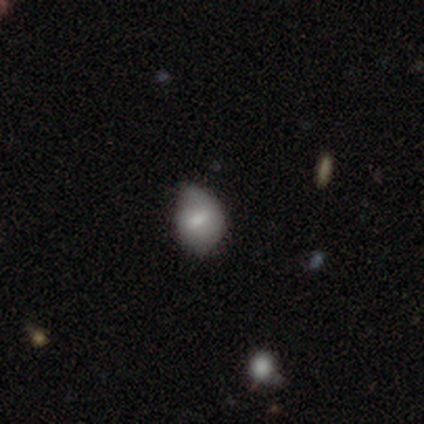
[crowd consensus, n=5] smooth 60%, star or artifact 40%, featured or disk 0%. Down the decision tree: how rounded — round (67%); merging — minor disturbance (67%).